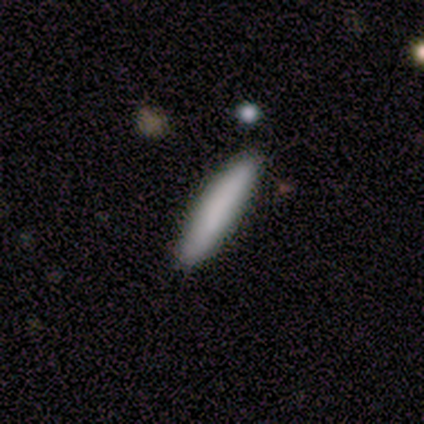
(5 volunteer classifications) Smooth or featured?
  - smooth: 100% *
  - featured or disk: 0%
  - star or artifact: 0%
How rounded?
  - cigar-shaped: 100% *
  - round: 0%
  - in between: 0%
Merging?
  - none: 100% *
  - minor disturbance: 0%
  - major disturbance: 0%
  - merger: 0%